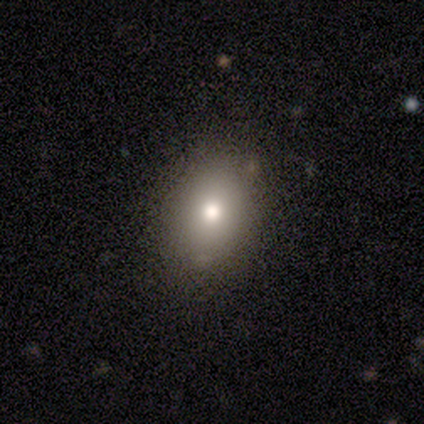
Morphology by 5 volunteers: Smooth or featured?
  - smooth: 100% *
  - featured or disk: 0%
  - star or artifact: 0%
How rounded?
  - in between: 60% *
  - round: 40%
  - cigar-shaped: 0%
Merging?
  - none: 100% *
  - minor disturbance: 0%
  - major disturbance: 0%
  - merger: 0%